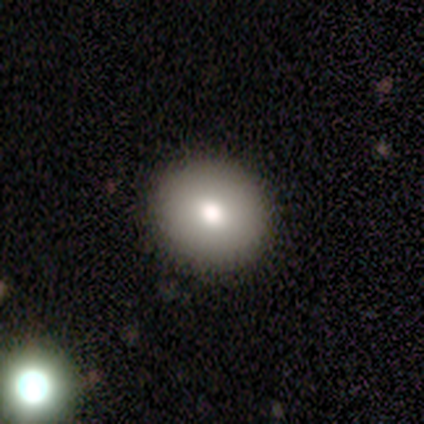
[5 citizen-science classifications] This appears to be a smooth galaxy with no disk features (80%) that is round (100%). Merging: none (100%).